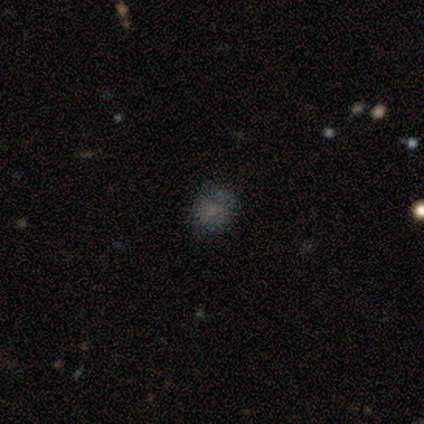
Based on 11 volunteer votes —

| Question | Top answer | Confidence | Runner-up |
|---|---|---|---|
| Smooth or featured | smooth | 91% | star or artifact (9%) |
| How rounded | round | 60% | in between (40%) |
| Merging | none | 90% | minor disturbance (10%) |